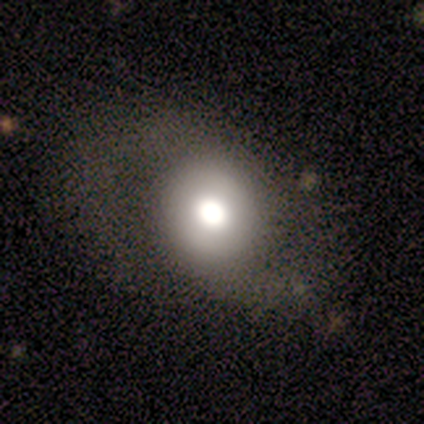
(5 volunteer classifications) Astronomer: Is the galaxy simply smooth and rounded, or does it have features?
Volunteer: featured or disk — 80%.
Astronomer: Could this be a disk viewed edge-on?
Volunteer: no — 100%.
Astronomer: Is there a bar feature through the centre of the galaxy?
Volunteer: no — 100%.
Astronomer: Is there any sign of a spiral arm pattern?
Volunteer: yes — 50%, tied with no at 50%.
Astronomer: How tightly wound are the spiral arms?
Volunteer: tight — 50%, tied with loose at 50%.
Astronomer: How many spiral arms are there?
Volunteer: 2 — 100%.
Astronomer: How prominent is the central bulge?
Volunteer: large — 100%.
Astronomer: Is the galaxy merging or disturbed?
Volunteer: major disturbance — 80%.